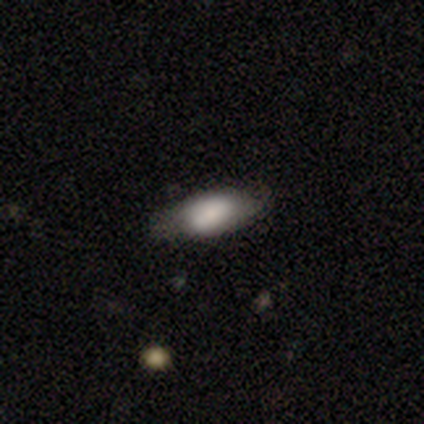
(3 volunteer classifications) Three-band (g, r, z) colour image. It shows a smooth galaxy with no disk features (67%) that is in between round and cigar-shaped (100%). Merging: none (50%, tied with minor disturbance).